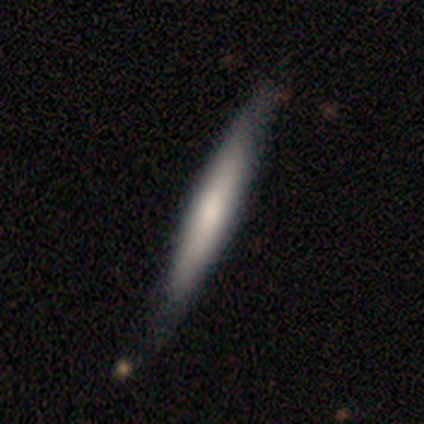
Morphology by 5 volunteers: This appears to be a smooth galaxy with no disk features (80%) that is cigar-shaped (100%). Merging: none (80%).